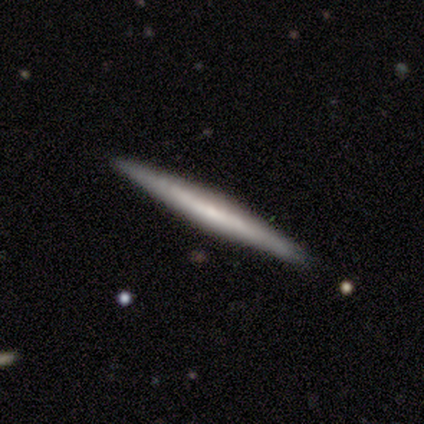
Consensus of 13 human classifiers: Volunteers were most divided on "smooth or featured": featured or disk: 69%, smooth: 31%, star or artifact: 0%. More confident: edge-on disk — yes (100%); merging — none (100%); edge-on bulge — none (67%).